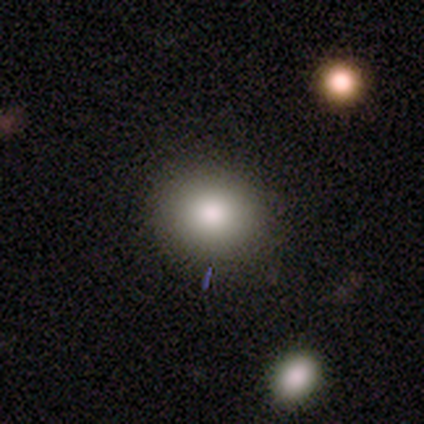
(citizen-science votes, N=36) Smooth or featured?
  - smooth: 81% *
  - featured or disk: 11%
  - star or artifact: 8%
How rounded?
  - round: 83% *
  - in between: 17%
  - cigar-shaped: 0%
Merging?
  - none: 94% *
  - minor disturbance: 3%
  - major disturbance: 3%
  - merger: 0%